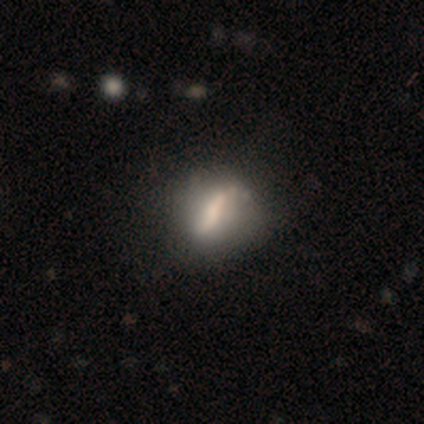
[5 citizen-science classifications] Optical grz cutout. It shows a smooth galaxy with no disk features (60%) that is round (33%, tied with in between and cigar-shaped). Merging: minor disturbance (50%).